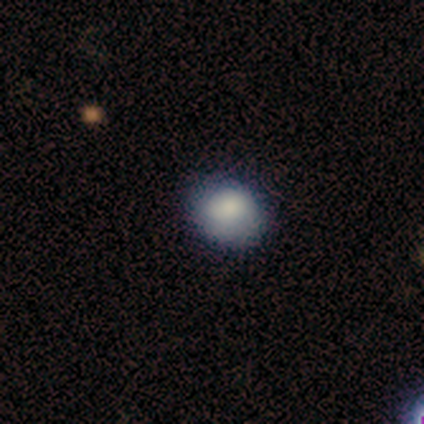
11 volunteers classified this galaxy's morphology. This is clearly a smooth galaxy (100%). How rounded: possibly round (55%). Merging: clearly none (91%).